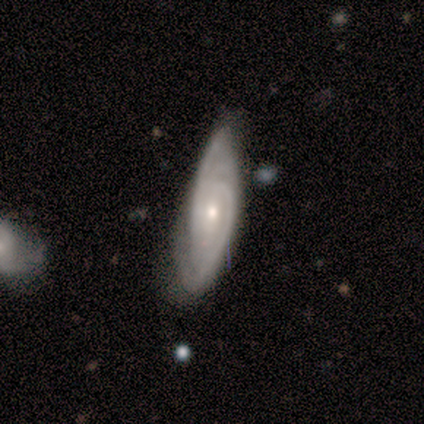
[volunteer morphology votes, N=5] A featured or disk galaxy (80%) with no bar (100%), 1 (33%, tied with 2 and can't tell) tight (67%) spiral arms (100%) and a moderate central bulge (67%). Merging: minor disturbance (60%).